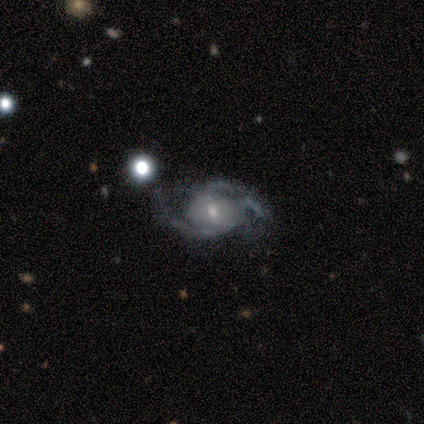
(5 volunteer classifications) This appears to be a featured or disk galaxy (100%) with no bar (60%), 2 (50%, tied with 3) medium (50%) spiral arms (80%) and a moderate central bulge (80%). Merging: none (100%).